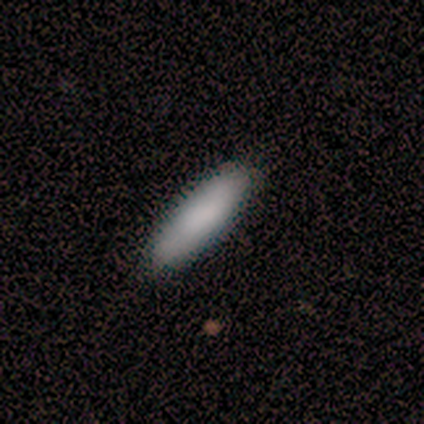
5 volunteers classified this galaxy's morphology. Smooth or featured?
  - smooth: 80% *
  - featured or disk: 20%
  - star or artifact: 0%
How rounded?
  - in between: 75% *
  - cigar-shaped: 25%
  - round: 0%
Merging?
  - none: 80% *
  - minor disturbance: 20%
  - major disturbance: 0%
  - merger: 0%